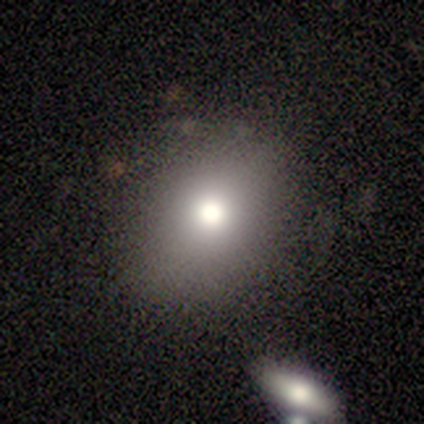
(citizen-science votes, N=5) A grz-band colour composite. It shows a smooth galaxy with no disk features (100%) that is round (80%). Merging: none (100%).